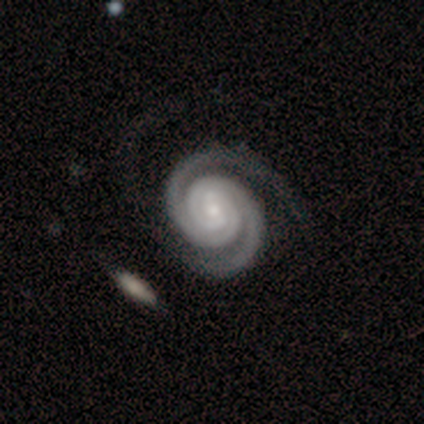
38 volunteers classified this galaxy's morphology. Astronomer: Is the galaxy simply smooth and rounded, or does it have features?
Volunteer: featured or disk — 95%.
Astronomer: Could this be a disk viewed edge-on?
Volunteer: no — 100%.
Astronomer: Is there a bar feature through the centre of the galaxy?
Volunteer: weak — 53%.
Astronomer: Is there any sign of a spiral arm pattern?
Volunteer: yes — 100%.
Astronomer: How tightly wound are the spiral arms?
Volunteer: tight — 81%.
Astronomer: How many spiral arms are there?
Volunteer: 2 — 92%.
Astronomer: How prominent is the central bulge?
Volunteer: small — 69%.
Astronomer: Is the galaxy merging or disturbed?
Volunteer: none — 46%.